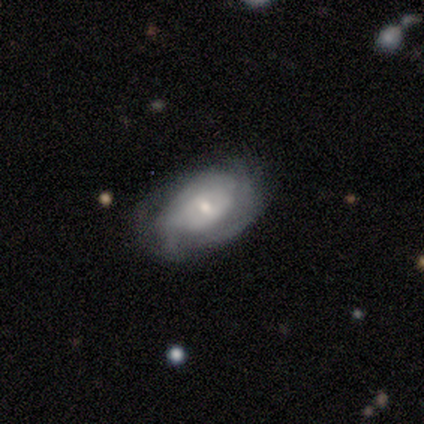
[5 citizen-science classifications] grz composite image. It shows a featured or disk galaxy (60%) with a weak bar (67%), 2 (100%) tight (50%, tied with medium) spiral arms (67%) and a small central bulge (67%). Merging: none (75%).